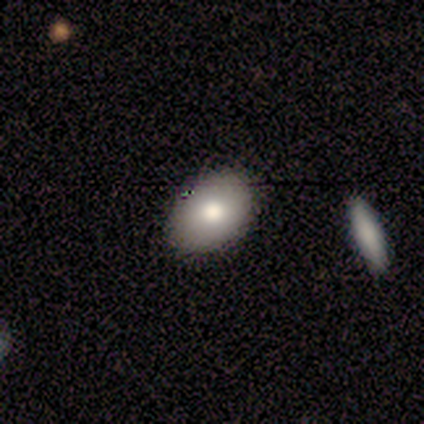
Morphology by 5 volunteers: Smooth or featured? smooth (60%)
How rounded? in between (100%)
Merging? none (100%)